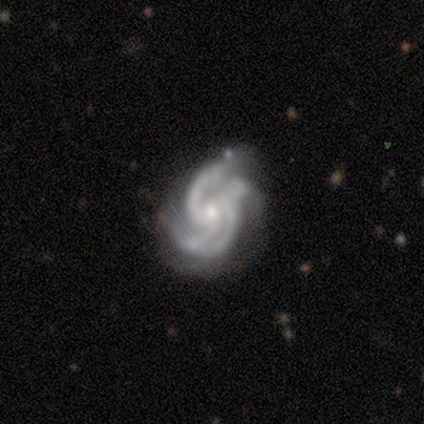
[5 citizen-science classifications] Smooth or featured: featured or disk — 100%
Edge-on disk: no — 100%
Bar: no — 80% (weak — 20%)
Spiral arms: yes — 100%
Spiral winding: medium — 80% (tight — 20%)
Spiral arm count: can't tell — 40% (2 — 20%)
Bulge size: moderate — 40% (tied with small — 40%)
Merging: none — 40% (minor disturbance — 20%)